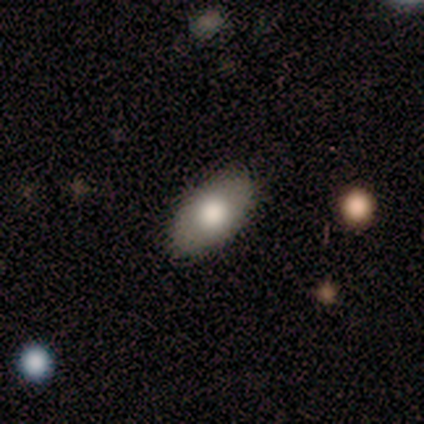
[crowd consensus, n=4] Volunteers were most divided on "merging": minor disturbance: 67%, none: 33%, major disturbance: 0%, merger: 0%. More confident: how rounded — in between (100%); smooth or featured — smooth (75%).